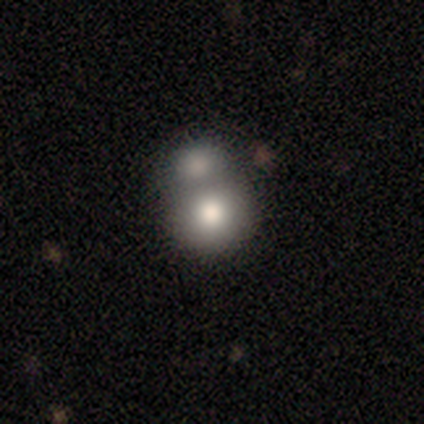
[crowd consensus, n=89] This is likely a smooth galaxy (73%). How rounded: clearly round (88%). Merging: likely merger (68%).